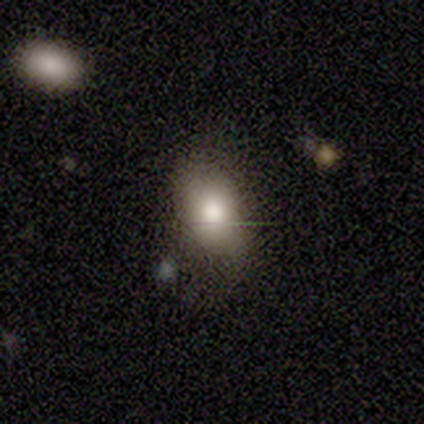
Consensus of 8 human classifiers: Smooth or featured: smooth — 50% (featured or disk — 25%)
How rounded: in between — 75% (round — 25%)
Merging: none — 50% (minor disturbance — 33%)